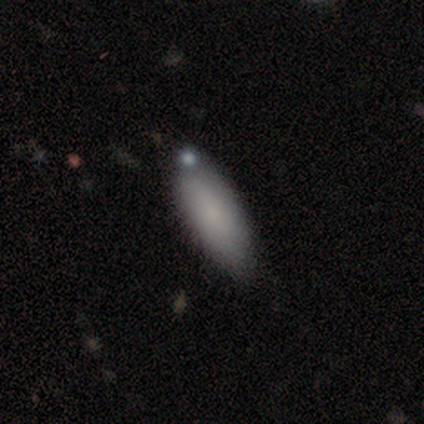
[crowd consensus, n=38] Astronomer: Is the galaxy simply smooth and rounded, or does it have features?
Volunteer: smooth — 89%.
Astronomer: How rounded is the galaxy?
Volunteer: in between — 88%.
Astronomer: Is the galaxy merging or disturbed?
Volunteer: none — 78%.